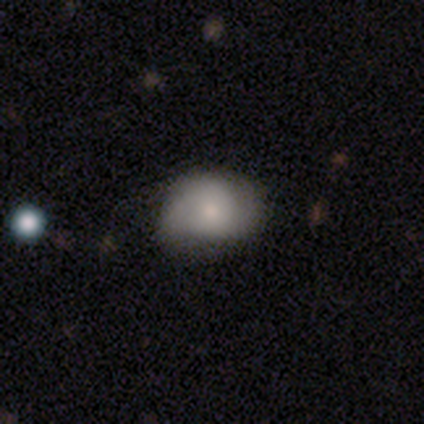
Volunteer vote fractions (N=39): Morphology: type=smooth (59%); roundness=in between (52%); merging=none (61%).